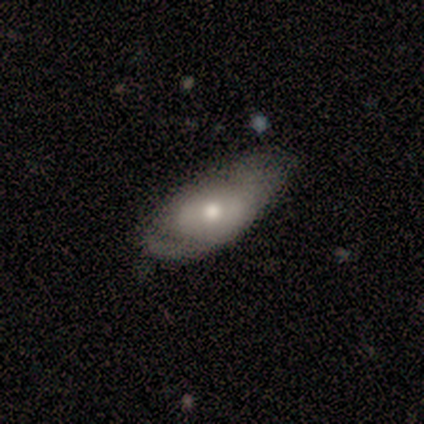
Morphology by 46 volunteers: Smooth or featured?
  - smooth: 52% *
  - featured or disk: 37%
  - star or artifact: 11%
How rounded?
  - in between: 75% *
  - cigar-shaped: 21%
  - round: 4%
Merging?
  - minor disturbance: 46% *
  - none: 29%
  - major disturbance: 20%
  - merger: 5%